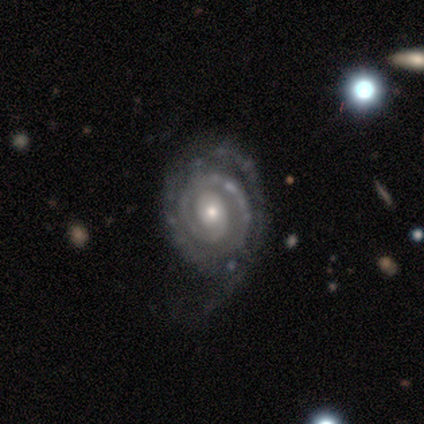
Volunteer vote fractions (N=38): Smooth or featured?
  - featured or disk: 87% *
  - star or artifact: 8%
  - smooth: 5%
Edge-on disk?
  - no: 100% *
  - yes: 0%
Bar?
  - no: 70% *
  - weak: 18%
  - strong: 12%
Spiral arms?
  - yes: 100% *
  - no: 0%
Spiral winding?
  - tight: 70% *
  - medium: 27%
  - loose: 3%
Spiral arm count?
  - 1: 30% *
  - 2: 27%
  - 3: 21%
  - can't tell: 15%
  - 4: 6%
  - more than 4: 0%
Bulge size?
  - small: 58% *
  - moderate: 33%
  - large: 6%
  - none: 3%
  - dominant: 0%
Merging?
  - none: 63% *
  - minor disturbance: 26%
  - major disturbance: 11%
  - merger: 0%